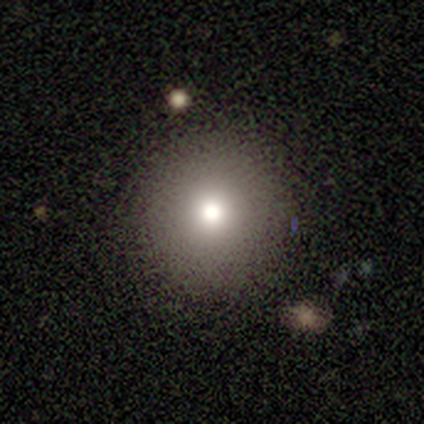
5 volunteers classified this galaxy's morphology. Smooth or featured? 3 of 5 (60%) said smooth. How rounded? 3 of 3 (100%) said round. Merging? 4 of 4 (100%) said none.